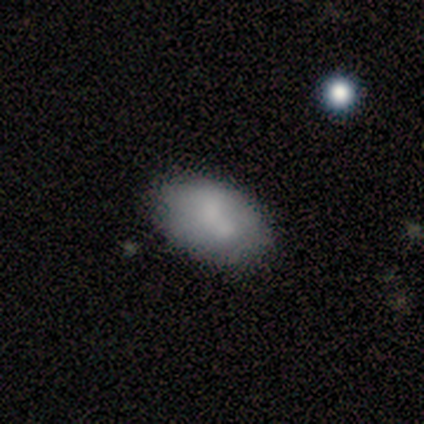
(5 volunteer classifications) smooth 80%, featured or disk 20%, star or artifact 0%. Down the decision tree: how rounded — in between (75%); merging — none (100%).